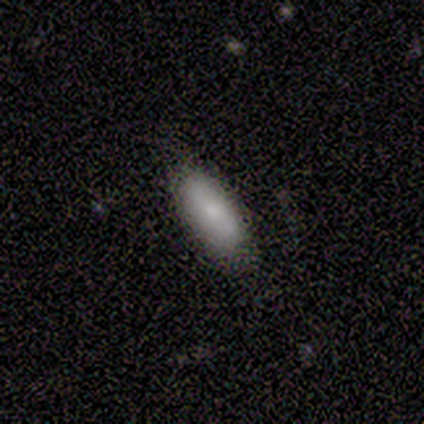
Smooth or featured?
  - smooth: 100% *
  - featured or disk: 0%
  - star or artifact: 0%
How rounded?
  - in between: 80% *
  - cigar-shaped: 20%
  - round: 0%
Merging?
  - none: 60% *
  - minor disturbance: 40%
  - major disturbance: 0%
  - merger: 0%